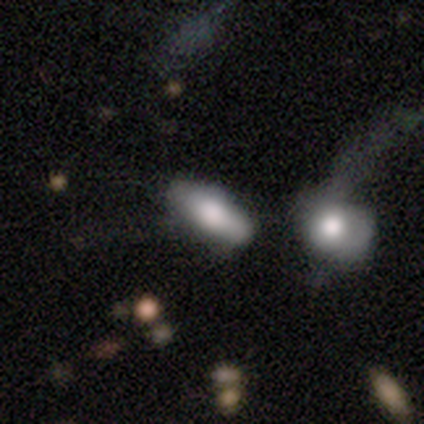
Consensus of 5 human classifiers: Morphology: type=smooth (60%); roundness=in between (67%); merging=none (50%).